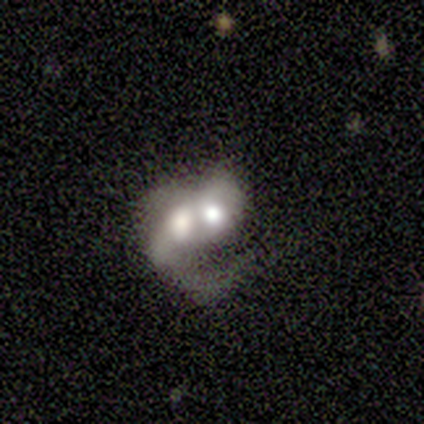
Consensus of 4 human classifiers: Smooth or featured: featured or disk — 100%
Edge-on disk: no — 100%
Bar: no — 75% (weak — 25%)
Spiral arms: yes — 75% (no — 25%)
Spiral winding: loose — 67% (medium — 33%)
Spiral arm count: 1 — 33% (tied with 2 — 33%; can't tell — 33%)
Bulge size: large — 50% (tied with moderate — 50%)
Merging: merger — 100%